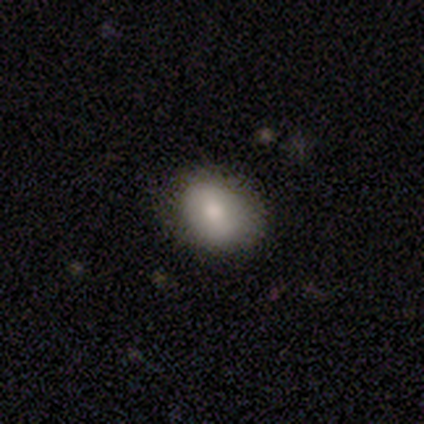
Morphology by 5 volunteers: Smooth or featured?
  - smooth: 80% *
  - star or artifact: 20%
  - featured or disk: 0%
How rounded?
  - round: 50% * (tied)
  - in between: 50% * (tied)
  - cigar-shaped: 0%
Merging?
  - none: 75% *
  - minor disturbance: 25%
  - major disturbance: 0%
  - merger: 0%